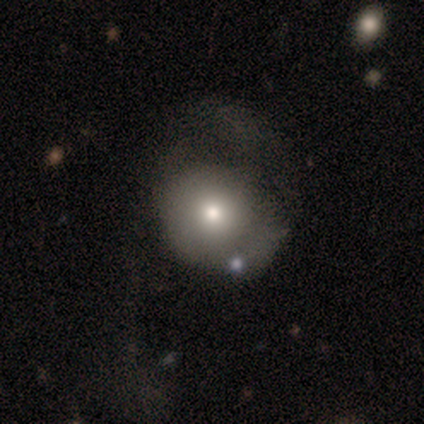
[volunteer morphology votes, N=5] Smooth or featured?
  - smooth: 60% *
  - featured or disk: 40%
  - star or artifact: 0%
How rounded?
  - round: 100% *
  - in between: 0%
  - cigar-shaped: 0%
Merging?
  - major disturbance: 60% *
  - none: 40%
  - minor disturbance: 0%
  - merger: 0%